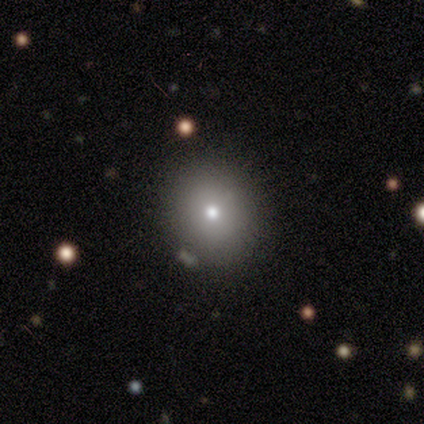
Morphology: type=smooth (100%); roundness=round (100%); merging=none (71%).